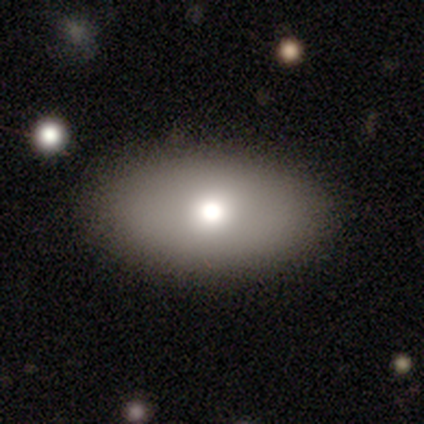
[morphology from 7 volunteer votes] Smooth or featured: smooth — 86% (star or artifact — 14%)
How rounded: in between — 100%
Merging: none — 83% (minor disturbance — 17%)